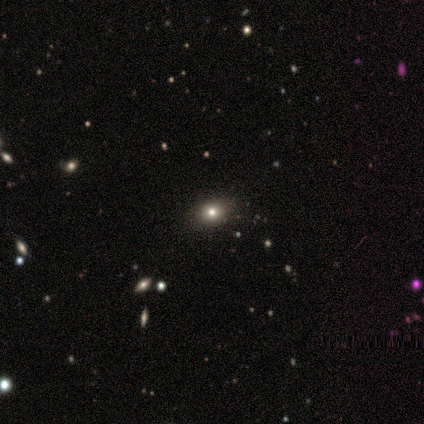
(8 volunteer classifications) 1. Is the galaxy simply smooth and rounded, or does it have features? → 100% smooth, 0% featured or disk, 0% star or artifact.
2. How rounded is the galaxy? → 50% round (tied), 50% in between (tied), 0% cigar-shaped.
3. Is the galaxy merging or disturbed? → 75% none, 25% minor disturbance, 0% major disturbance, 0% merger.